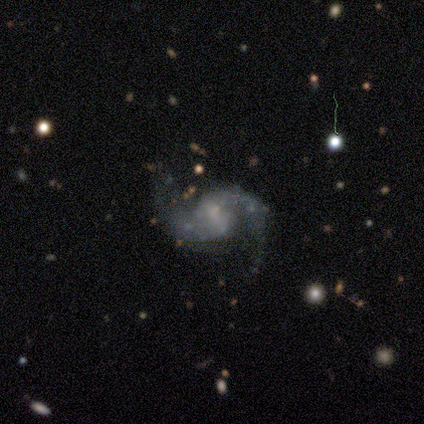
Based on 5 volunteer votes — smooth-or-featured: featured or disk: 80% | smooth: 20% | star or artifact: 0%
  disk-edge-on: no: 100% | yes: 0%
    bar: no: 75% | weak: 25% | strong: 0%
    has-spiral-arms: yes: 100% | no: 0%
      spiral-winding: loose: 75% | medium: 25% | tight: 0%
      spiral-arm-count: 2: 100% | 1: 0% | 3: 0% | 4: 0% | more than 4: 0% | can't tell: 0%
    bulge-size: none: 100% | dominant: 0% | large: 0% | moderate: 0% | small: 0%
  merging: none: 80% | merger: 20% | minor disturbance: 0% | major disturbance: 0%